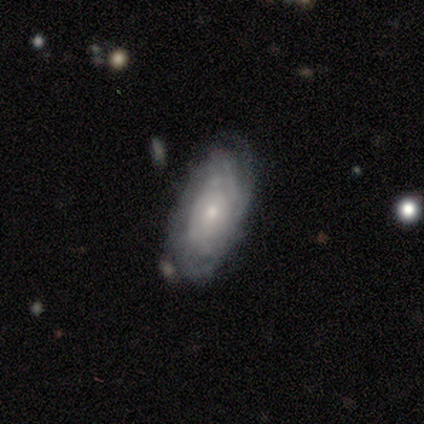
featured or disk 75%, smooth 25%, star or artifact 0%. Down the decision tree: edge-on disk — no (100%); bar — no (67%); spiral arms — yes (100%); spiral arm count — 2 (33%, tied with more than 4 and can't tell); spiral winding — tight (33%, tied with medium and loose); bulge size — small (67%); merging — none (100%).